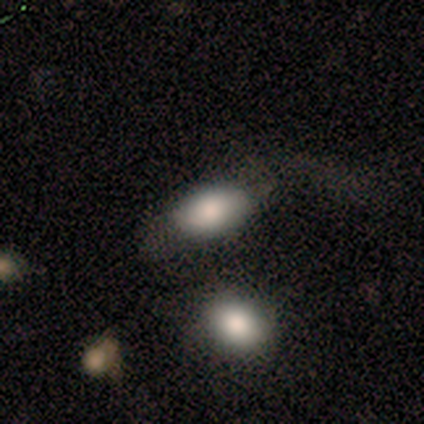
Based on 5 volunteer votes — Overall: smooth (80%). How rounded: in between (100%). Merging: none (50%; major disturbance 25%).